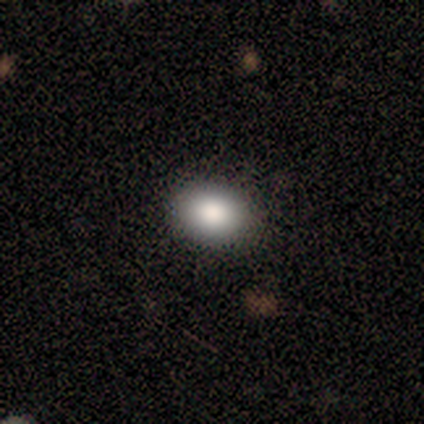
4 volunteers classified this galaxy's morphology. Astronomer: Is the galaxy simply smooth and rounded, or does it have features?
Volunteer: smooth — 100%.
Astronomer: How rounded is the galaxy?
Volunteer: round — 50%, tied with in between at 50%.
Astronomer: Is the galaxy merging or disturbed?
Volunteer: none — 75%.